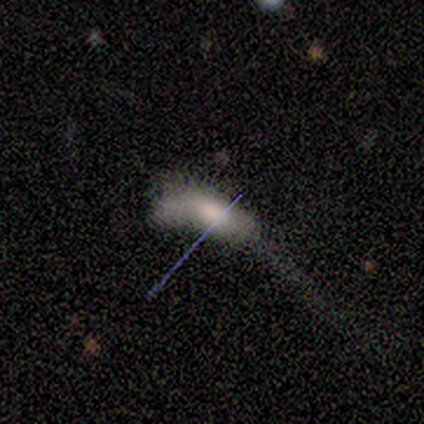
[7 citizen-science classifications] Morphology: type=smooth (57%); roundness=in between (100%); merging=major disturbance (57%).